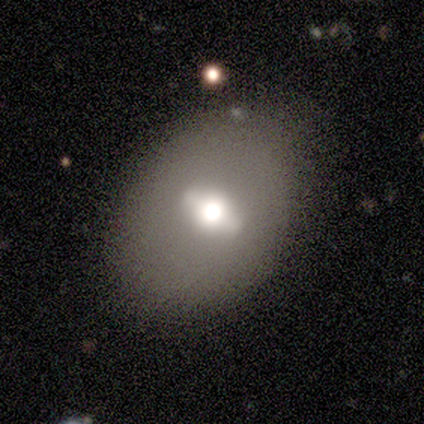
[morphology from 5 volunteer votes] A smooth galaxy with no disk features (40%, tied with featured or disk) that is round (50%, tied with in between).

Vote fractions:
- Smooth or featured? smooth: 40% (tied) / featured or disk: 40% (tied) / star or artifact: 20%
- How rounded? round: 50% (tied) / in between: 50% (tied) / cigar-shaped: 0%
- Merging? none: 100% / minor disturbance: 0% / major disturbance: 0% / merger: 0%